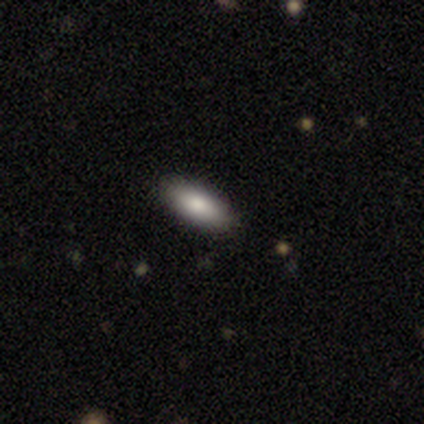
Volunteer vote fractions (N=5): Smooth or featured? 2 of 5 (40%, tied with star or artifact) said featured or disk. Edge-on disk? 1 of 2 (50%, tied with no) said yes. Edge-on bulge? 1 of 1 (100%) said rounded. Merging? 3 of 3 (100%) said none.